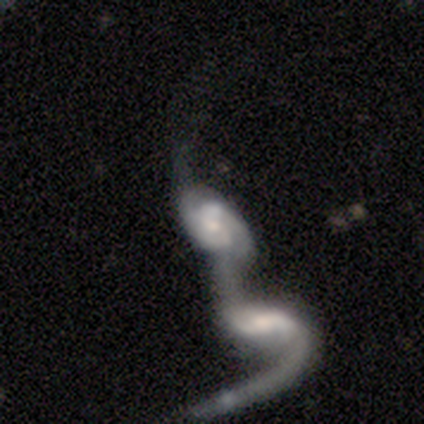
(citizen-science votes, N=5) This is clearly a featured or disk galaxy (100%). It is clearly not viewed edge-on (100%). Bar: marginally weak (40%, tied with no). Spiral arm pattern: clearly yes (100%). Spiral arm count: clearly 2 (100%). Spiral winding: likely loose (60%). Central bulge: marginally moderate (40%, tied with small). Merging: clearly merger (100%).